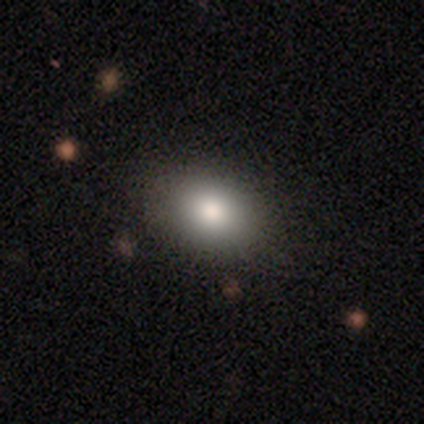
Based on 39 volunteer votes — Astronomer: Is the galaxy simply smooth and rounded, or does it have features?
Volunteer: smooth — 85%.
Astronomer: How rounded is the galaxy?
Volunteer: in between — 64%.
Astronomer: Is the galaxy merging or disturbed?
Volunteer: none — 89%.